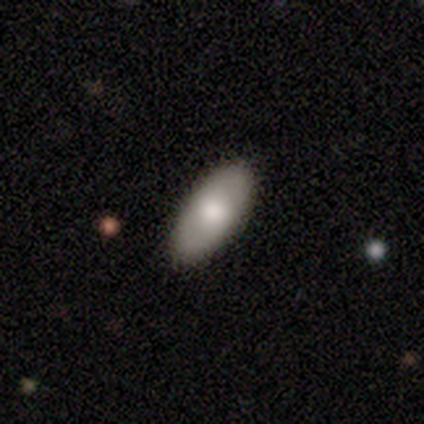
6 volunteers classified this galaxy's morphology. Q: Smooth or featured?
A: smooth (50%); tied with: featured or disk (50%)
Q: How rounded?
A: in between (100%)
Q: Merging?
A: none (83%); runner-up: major disturbance (17%)